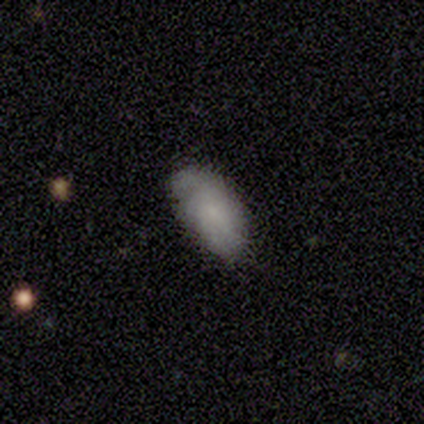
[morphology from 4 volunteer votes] smooth 50%, featured or disk 25%, star or artifact 25%. Down the decision tree: how rounded — in between (100%); merging — none (100%).